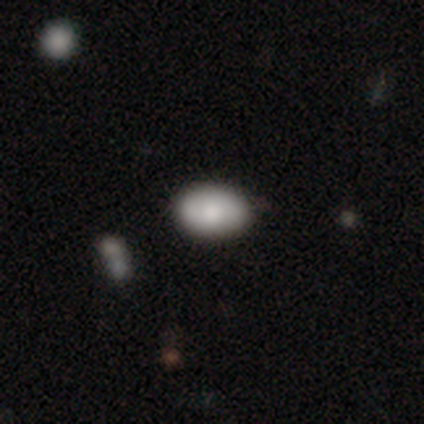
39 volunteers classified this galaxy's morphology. type=smooth (77%); roundness=in between (93%); merging=none (83%).